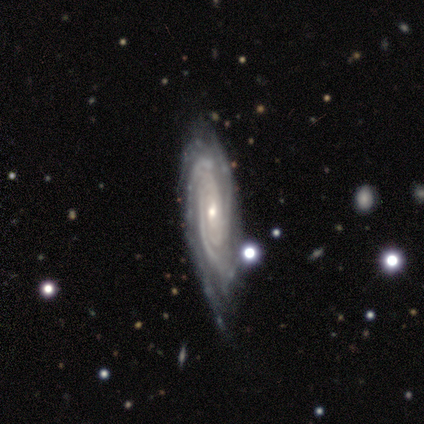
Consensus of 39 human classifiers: Volunteers were most divided on "spiral arm count": 3: 38%, can't tell: 34%, 2: 12%, 4: 9%, more than 4: 6%, 1: 0%. More confident: spiral arms — yes (100%); smooth or featured — featured or disk (92%); edge-on disk — no (89%); spiral winding — tight (81%); bulge size — small (62%); merging — none (59%); bar — no (50%).